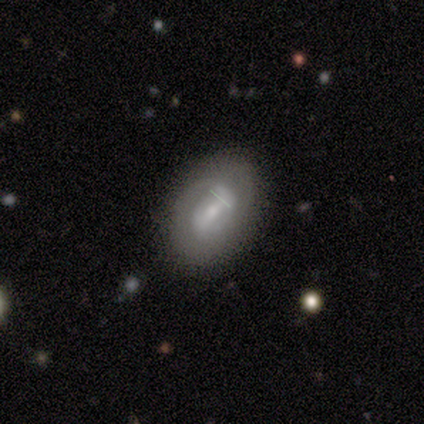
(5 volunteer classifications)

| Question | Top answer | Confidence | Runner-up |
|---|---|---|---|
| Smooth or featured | featured or disk | 60% | smooth (40%) |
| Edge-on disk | no | 100% | — |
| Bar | strong | 33% | tied: weak (33%), no (33%) |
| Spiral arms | yes | 100% | — |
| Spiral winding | tight | 67% | medium (33%) |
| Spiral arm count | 2 | 67% | can't tell (33%) |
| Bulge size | small | 67% | moderate (33%) |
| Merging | none | 100% | — |